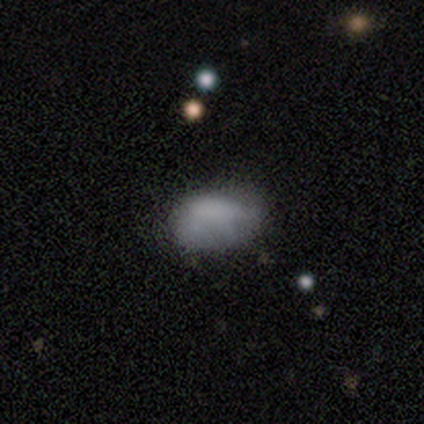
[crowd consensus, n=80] Smooth or featured: smooth — 69% (featured or disk — 20%)
How rounded: in between — 91% (round — 7%)
Merging: none — 32% (minor disturbance — 14%)